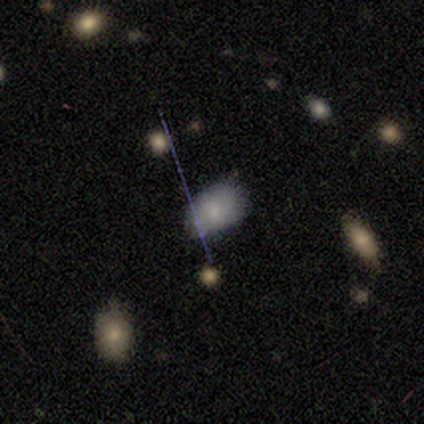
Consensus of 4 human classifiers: smooth-or-featured: smooth: 75% | featured or disk: 25% | star or artifact: 0%
  how-rounded: in between: 67% | round: 33% | cigar-shaped: 0%
  merging: none: 50% (tied) | minor disturbance: 50% (tied) | major disturbance: 0% | merger: 0%